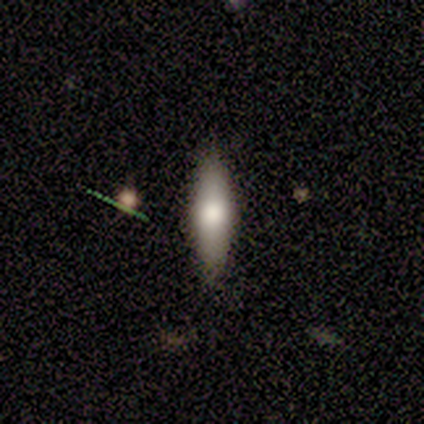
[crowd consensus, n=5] Volunteers were most divided on "smooth or featured" (2-way tie): smooth: 40%, star or artifact: 40%, featured or disk: 20%. More confident: how rounded — cigar-shaped (100%); merging — none (100%).